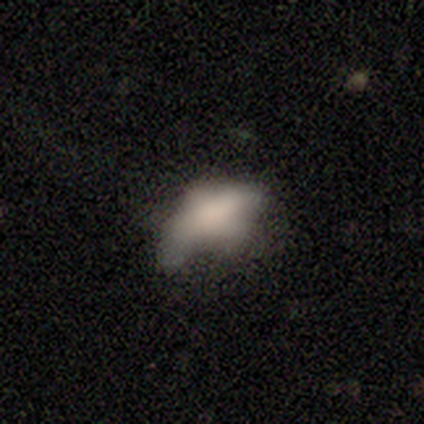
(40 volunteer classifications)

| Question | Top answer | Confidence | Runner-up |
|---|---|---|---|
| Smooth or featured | smooth | 55% | featured or disk (28%) |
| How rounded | in between | 100% | — |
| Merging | minor disturbance | 36% | major disturbance (30%) |